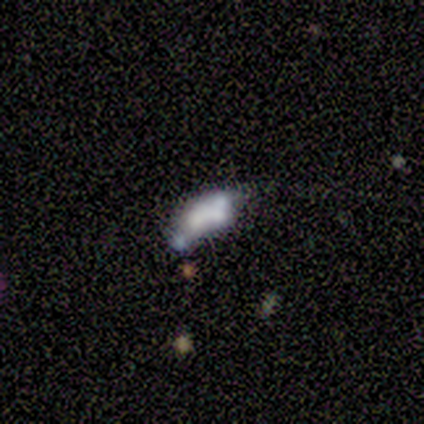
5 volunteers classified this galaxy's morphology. Overall: smooth (60%; star or artifact 40%). How rounded: in between (67%; round 33%). Merging: none (33%, tied with minor disturbance and merger).